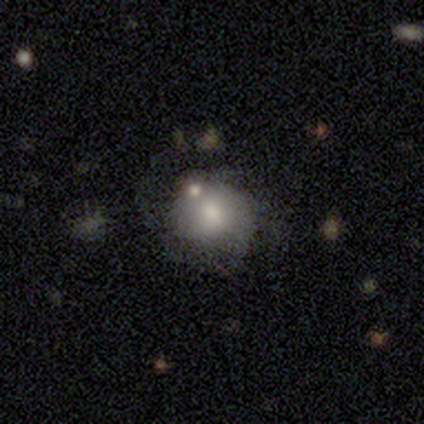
A smooth galaxy with no disk features (63%) that is round (79%). Merging: none (42%).